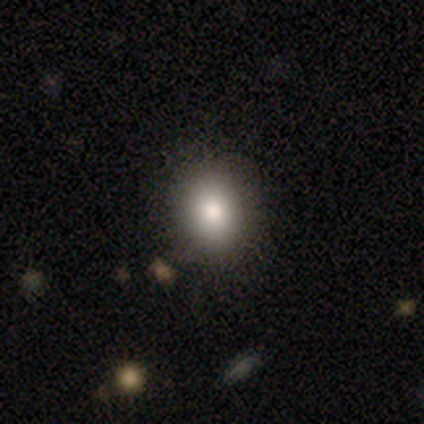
smooth_or_featured: smooth (p=0.80) [alt: featured or disk p=0.20]
how_rounded: round (p=0.50) [tied with: in between p=0.50]
merging: none (p=1.00)